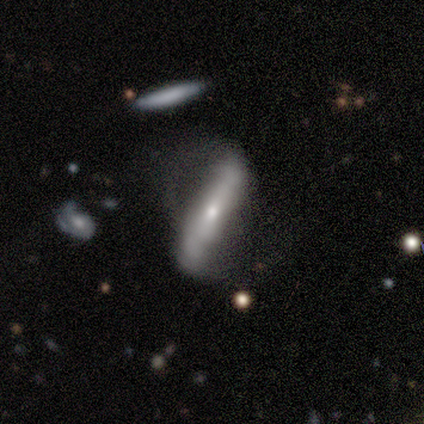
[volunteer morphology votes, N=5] smooth 60%, featured or disk 40%, star or artifact 0%. Down the decision tree: how rounded — cigar-shaped (100%); merging — minor disturbance (40%, tied with major disturbance).